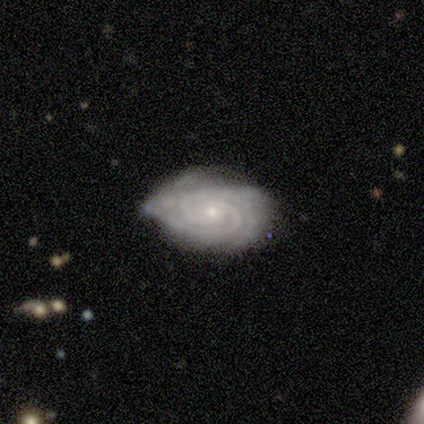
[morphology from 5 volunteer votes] Smooth or featured: featured or disk — 100%
Edge-on disk: no — 100%
Bar: no — 100%
Spiral arms: yes — 100%
Spiral winding: tight — 100%
Spiral arm count: 2 — 60% (can't tell — 40%)
Bulge size: small — 100%
Merging: none — 40% (tied with minor disturbance — 40%)